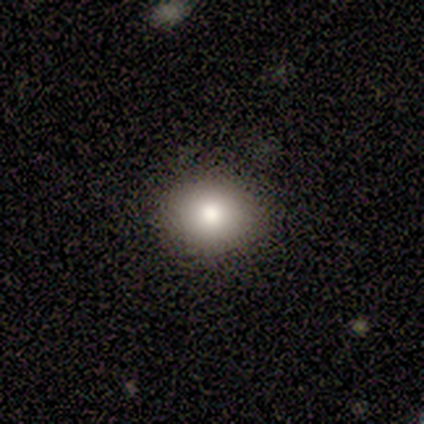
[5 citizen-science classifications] Smooth or featured? smooth (80%)
How rounded? round (50%, tied with in between)
Merging? none (100%)